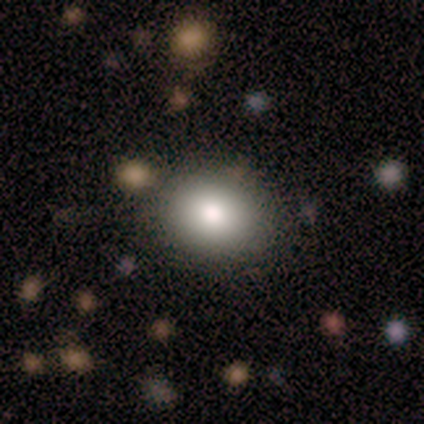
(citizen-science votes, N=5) Volunteers were most divided on "how rounded": in between: 60%, round: 40%, cigar-shaped: 0%. More confident: smooth or featured — smooth (100%); merging — none (80%).